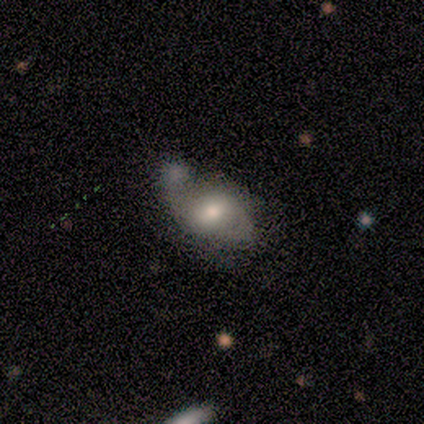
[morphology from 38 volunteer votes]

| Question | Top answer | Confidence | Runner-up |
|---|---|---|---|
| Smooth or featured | smooth | 50% | featured or disk (42%) |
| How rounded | in between | 95% | round (5%) |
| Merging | merger | 31% | none (29%) |